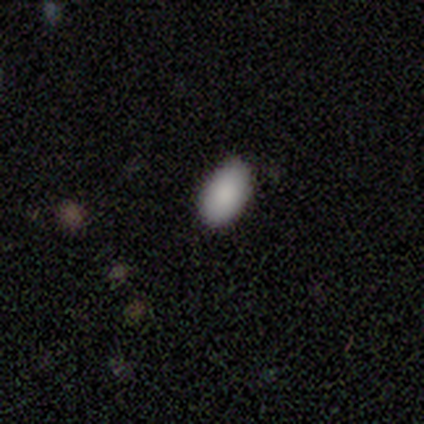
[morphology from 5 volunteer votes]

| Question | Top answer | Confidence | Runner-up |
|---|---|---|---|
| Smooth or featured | smooth | 100% | — |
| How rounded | in between | 100% | — |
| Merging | none | 100% | — |